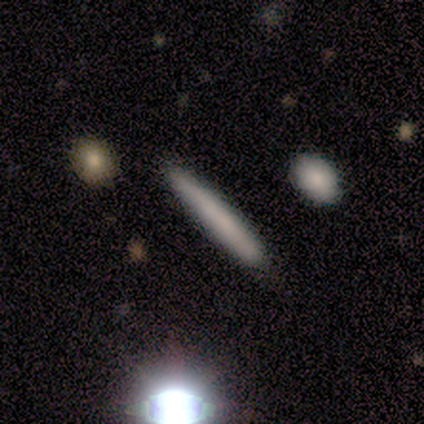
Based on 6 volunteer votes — smooth-or-featured: smooth: 100% | featured or disk: 0% | star or artifact: 0%
  how-rounded: cigar-shaped: 100% | round: 0% | in between: 0%
  merging: none: 100% | minor disturbance: 0% | major disturbance: 0% | merger: 0%